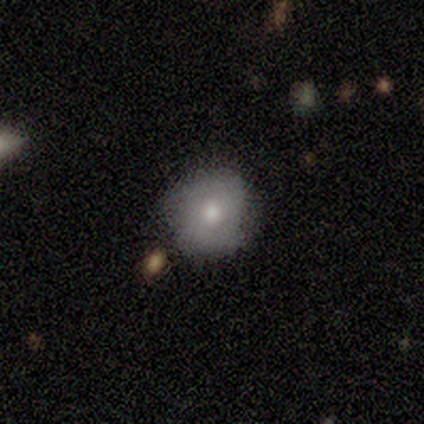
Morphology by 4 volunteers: smooth_or_featured: smooth (p=0.50) [tied with: featured or disk p=0.50]
how_rounded: round (p=1.00)
merging: none (p=0.75) [alt: merger p=0.25]